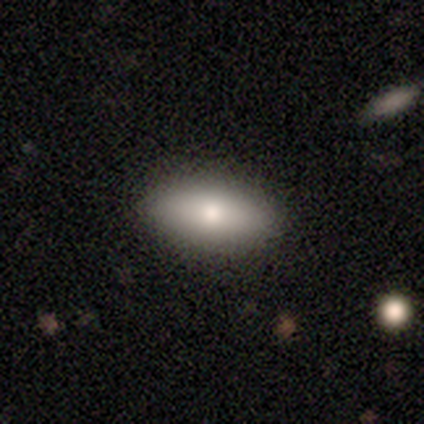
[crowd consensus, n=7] smooth_or_featured: smooth (p=1.00)
how_rounded: in between (p=0.71) [alt: cigar-shaped p=0.29]
merging: none (p=1.00)